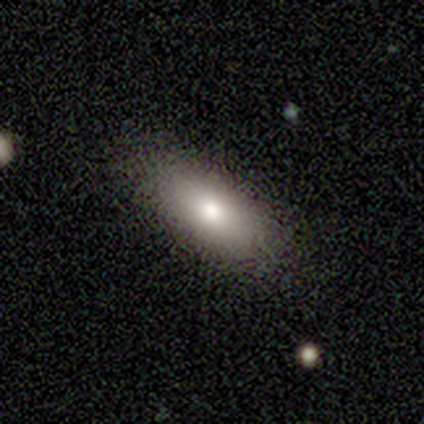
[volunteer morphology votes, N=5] Smooth or featured: smooth — 60% (featured or disk — 40%)
How rounded: in between — 100%
Merging: none — 100%